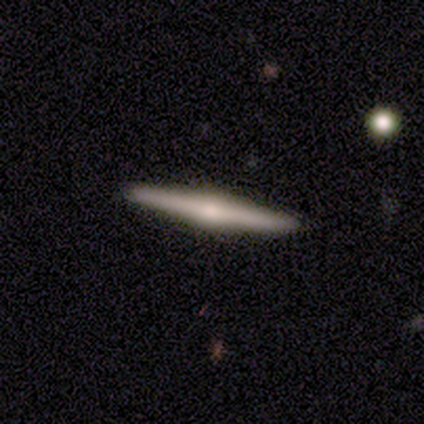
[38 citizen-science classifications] This is likely a featured or disk galaxy (71%). It is clearly viewed edge-on (100%). Edge-on bulge: clearly rounded (85%). Merging: clearly none (91%).